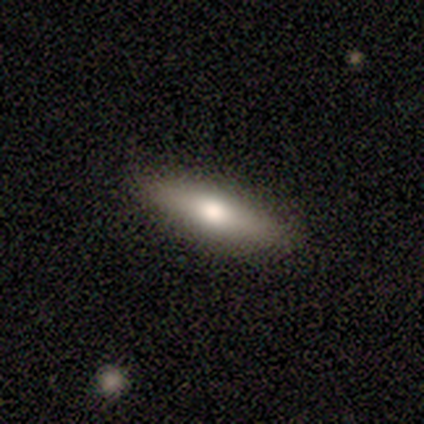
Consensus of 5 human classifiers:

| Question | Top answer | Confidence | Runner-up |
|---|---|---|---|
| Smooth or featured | smooth | 40% | tied: featured or disk (40%) |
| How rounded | cigar-shaped | 100% | — |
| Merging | none | 100% | — |